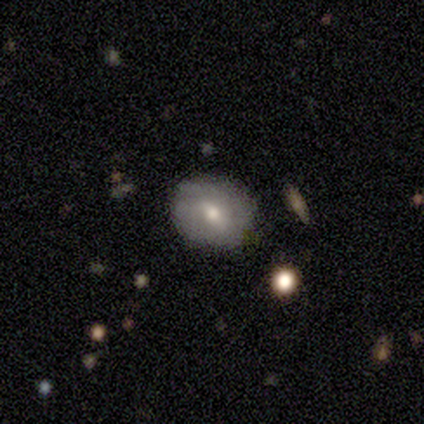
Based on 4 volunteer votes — This appears to be a featured or disk galaxy (100%) with a weak bar (50%), 2 (67%) tight (67%) spiral arms (75%) and a moderate central bulge (75%). Merging: none (50%, tied with minor disturbance).